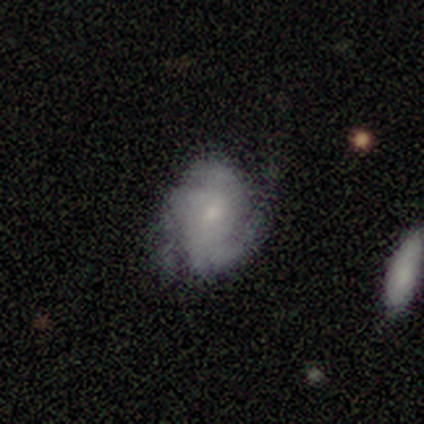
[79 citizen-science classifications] Smooth or featured?
  - featured or disk: 78% *
  - smooth: 14%
  - star or artifact: 8%
Edge-on disk?
  - no: 98% *
  - yes: 2%
Bar?
  - no: 74% *
  - weak: 18%
  - strong: 8%
Spiral arms?
  - yes: 93% *
  - no: 7%
Spiral winding?
  - tight: 44% *
  - medium: 40%
  - loose: 16%
Spiral arm count?
  - 2: 51% *
  - 3: 25%
  - can't tell: 23%
  - 1: 2%
  - 4: 0%
  - more than 4: 0%
Bulge size?
  - small: 69% *
  - moderate: 21%
  - none: 7%
  - dominant: 2%
  - large: 2%
Merging?
  - none: 42% *
  - major disturbance: 10%
  - minor disturbance: 5%
  - merger: 3%